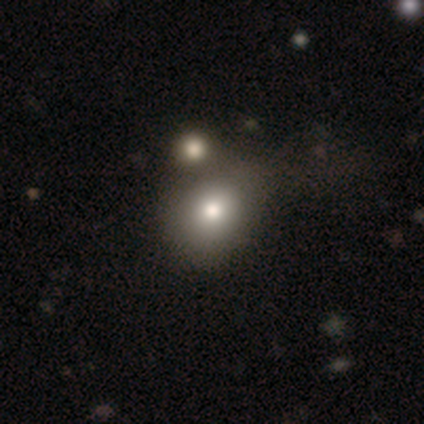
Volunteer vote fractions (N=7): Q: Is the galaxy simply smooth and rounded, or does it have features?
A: smooth — 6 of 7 (86%).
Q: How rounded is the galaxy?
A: round — 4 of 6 (67%).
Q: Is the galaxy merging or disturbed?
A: merger — 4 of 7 (57%).